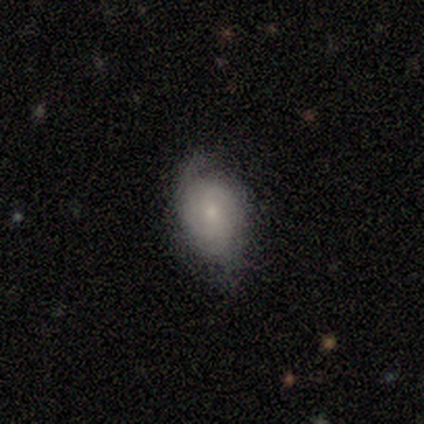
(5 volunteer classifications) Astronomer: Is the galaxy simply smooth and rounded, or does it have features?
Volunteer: smooth — 80%.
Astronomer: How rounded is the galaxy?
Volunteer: in between — 75%.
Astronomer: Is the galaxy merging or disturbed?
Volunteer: none — 60% (runner-up: minor disturbance, 40%).